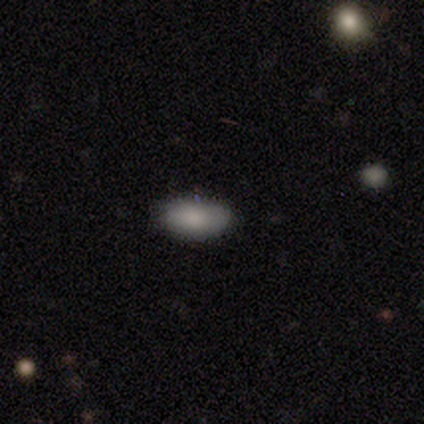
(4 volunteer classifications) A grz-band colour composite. It shows a smooth galaxy with no disk features (75%) that is in between round and cigar-shaped (100%). Merging: none (100%).